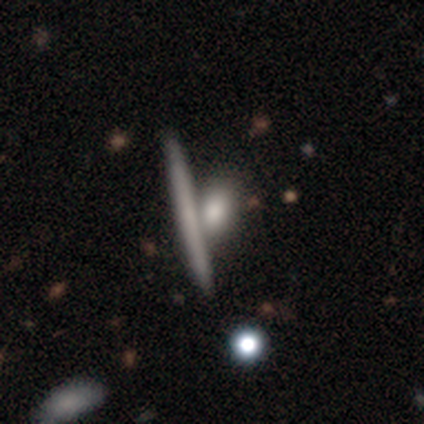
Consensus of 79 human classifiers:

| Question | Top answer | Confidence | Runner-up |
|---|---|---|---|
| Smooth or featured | smooth | 56% | featured or disk (42%) |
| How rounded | cigar-shaped | 57% | in between (41%) |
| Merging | none | 49% | merger (34%) |